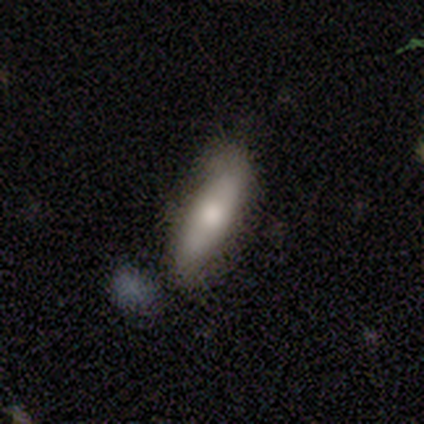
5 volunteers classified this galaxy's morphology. A featured or disk galaxy (60%) with no bar (100%), 2 (50%, tied with can't tell) loose (100%) spiral arms (100%) and a large central bulge (50%, tied with small). Merging: none (50%, tied with minor disturbance).